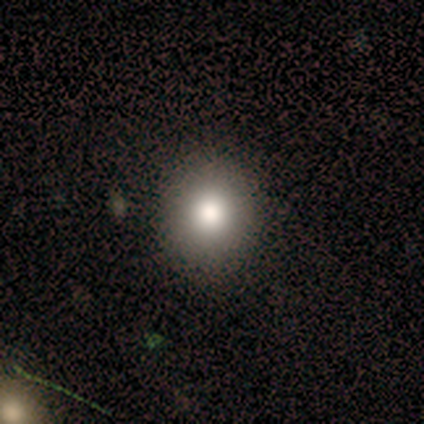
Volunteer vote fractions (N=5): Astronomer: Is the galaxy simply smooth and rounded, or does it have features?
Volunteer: smooth — 80%.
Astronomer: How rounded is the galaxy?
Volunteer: round — 100%.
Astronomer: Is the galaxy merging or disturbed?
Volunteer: none — 100%.